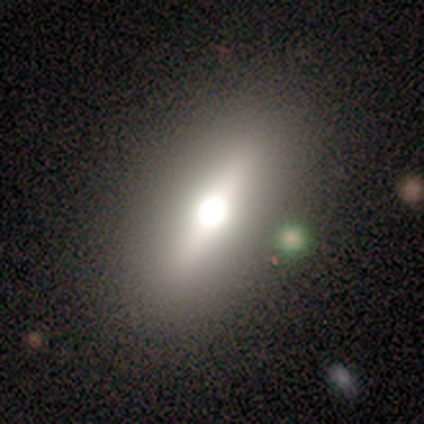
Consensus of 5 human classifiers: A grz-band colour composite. It shows a featured or disk galaxy (60%) viewed edge-on (67%) with a rounded central bulge (100%). Merging: none (50%, tied with minor disturbance).